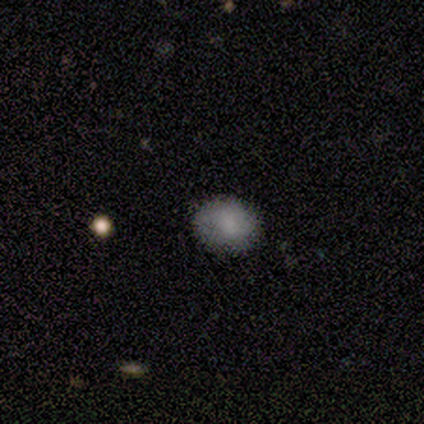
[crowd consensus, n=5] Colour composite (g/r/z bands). It shows a smooth galaxy with no disk features (40%, tied with featured or disk) that is round (50%, tied with in between). Merging: minor disturbance (75%).